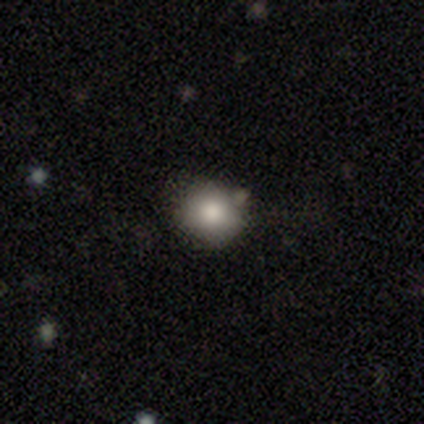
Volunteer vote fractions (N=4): Volunteers were most divided on "smooth or featured" (2-way tie): smooth: 50%, star or artifact: 50%, featured or disk: 0%; "merging" (2-way tie): none: 50%, minor disturbance: 50%, major disturbance: 0%, merger: 0%. More confident: how rounded — round (100%).